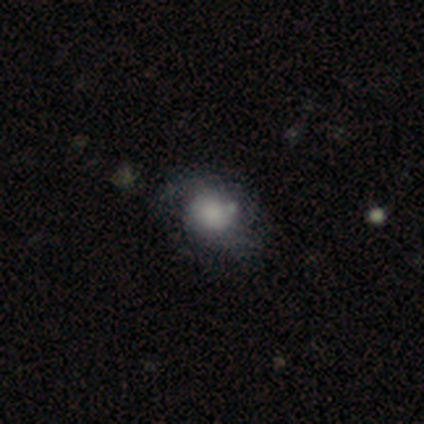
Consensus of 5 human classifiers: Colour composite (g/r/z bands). It shows a smooth galaxy with no disk features (60%) that is in between round and cigar-shaped (67%). Merging: none (50%, tied with minor disturbance).